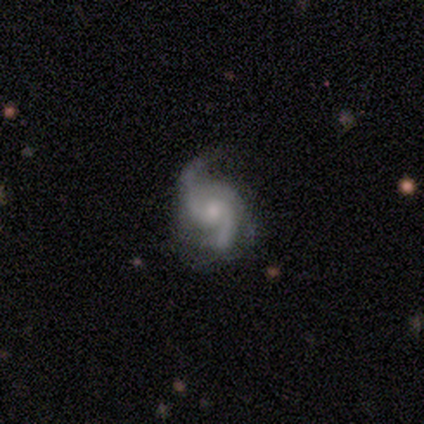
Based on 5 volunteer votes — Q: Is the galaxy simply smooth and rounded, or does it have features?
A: featured or disk — 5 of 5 (100%).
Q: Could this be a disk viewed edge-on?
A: no — 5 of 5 (100%).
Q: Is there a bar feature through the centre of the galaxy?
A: no — 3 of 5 (60%).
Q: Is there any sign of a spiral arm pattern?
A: yes — 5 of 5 (100%).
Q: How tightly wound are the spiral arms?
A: medium — 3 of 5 (60%).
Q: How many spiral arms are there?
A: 2 — 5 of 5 (100%).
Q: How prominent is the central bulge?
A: moderate — 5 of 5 (100%).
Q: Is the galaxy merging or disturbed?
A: none — 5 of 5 (100%).